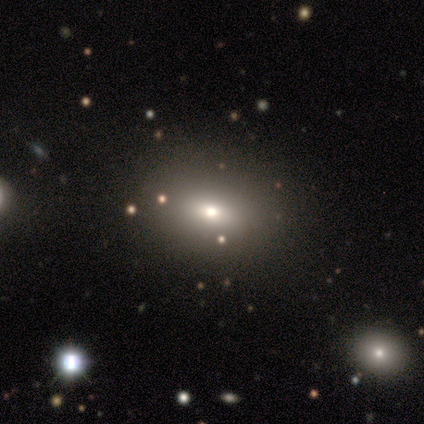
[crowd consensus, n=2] Q: Smooth or featured?
A: smooth (50%); tied with: star or artifact (50%)
Q: How rounded?
A: in between (100%)
Q: Merging?
A: none (100%)